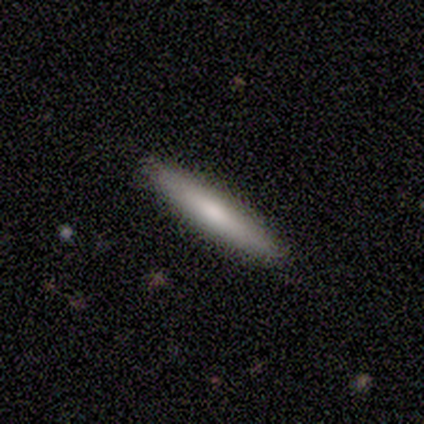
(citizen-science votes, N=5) Volunteers were most divided on "smooth or featured": smooth: 60%, featured or disk: 40%, star or artifact: 0%. More confident: how rounded — cigar-shaped (100%); merging — none (100%).